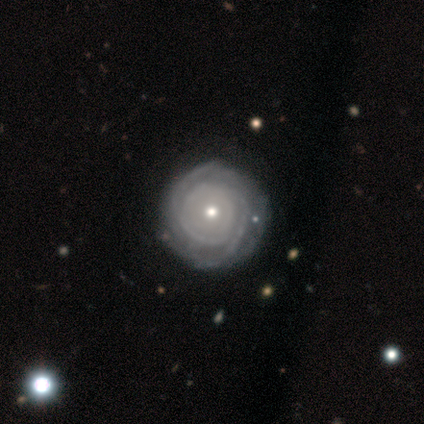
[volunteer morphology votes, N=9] Q: Smooth or featured?
A: featured or disk (89%); runner-up: star or artifact (11%)
Q: Edge-on disk?
A: no (100%)
Q: Bar?
A: no (100%)
Q: Spiral arms?
A: yes (100%)
Q: Spiral winding?
A: tight (100%)
Q: Spiral arm count?
A: can't tell (38%); runner-up: 2 (25%)
Q: Bulge size?
A: small (75%); runner-up: moderate (25%)
Q: Merging?
A: none (88%); runner-up: minor disturbance (12%)